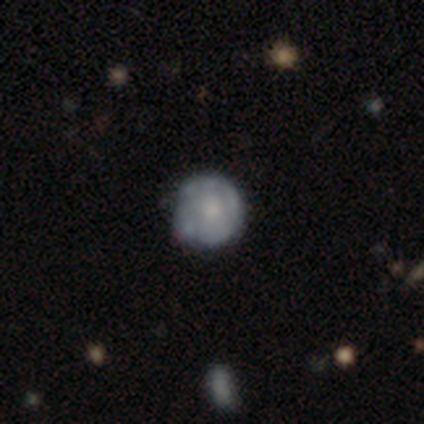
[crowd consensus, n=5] Q: Smooth or featured?
A: smooth (60%); runner-up: featured or disk (40%)
Q: How rounded?
A: round (67%); runner-up: in between (33%)
Q: Merging?
A: none (100%)